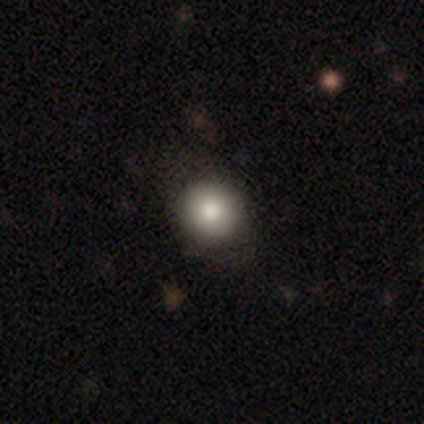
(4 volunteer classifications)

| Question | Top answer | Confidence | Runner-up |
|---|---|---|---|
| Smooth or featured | smooth | 50% | tied: featured or disk (50%) |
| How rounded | round | 100% | — |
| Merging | minor disturbance | 50% | none (25%) |